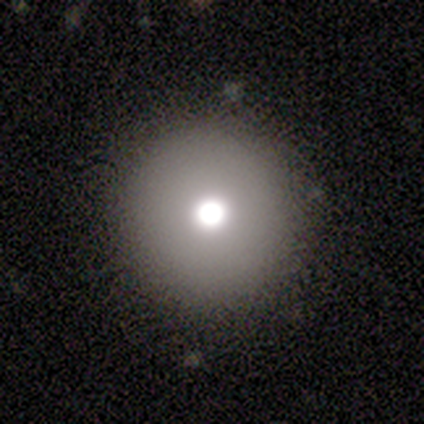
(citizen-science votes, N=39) This is likely a smooth galaxy (72%). How rounded: clearly round (100%). Merging: clearly none (94%).